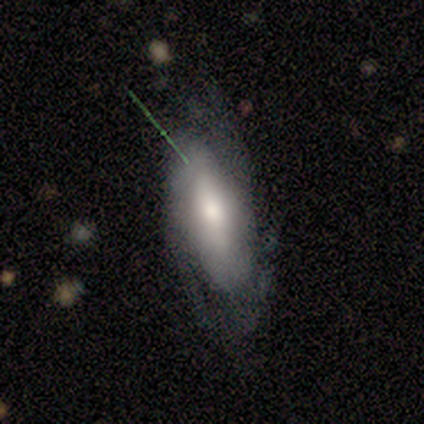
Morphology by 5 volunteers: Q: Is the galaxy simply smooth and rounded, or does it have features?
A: featured or disk — 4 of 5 (80%).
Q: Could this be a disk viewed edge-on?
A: no — 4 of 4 (100%).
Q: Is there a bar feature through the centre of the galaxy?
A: strong — 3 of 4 (75%).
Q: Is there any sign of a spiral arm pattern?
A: yes — 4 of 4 (100%).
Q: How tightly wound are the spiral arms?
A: tight — 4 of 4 (100%).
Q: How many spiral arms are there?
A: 2 — 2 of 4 (50%, tied with can't tell).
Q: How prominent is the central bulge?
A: moderate — 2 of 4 (50%).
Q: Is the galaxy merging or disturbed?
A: none — 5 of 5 (100%).